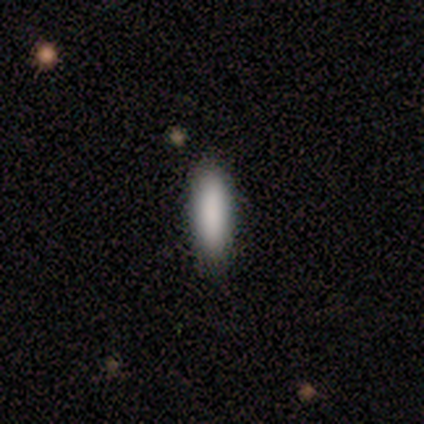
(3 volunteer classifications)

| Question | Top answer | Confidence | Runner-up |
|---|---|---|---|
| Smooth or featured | smooth | 100% | — |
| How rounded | cigar-shaped | 67% | in between (33%) |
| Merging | none | 100% | — |